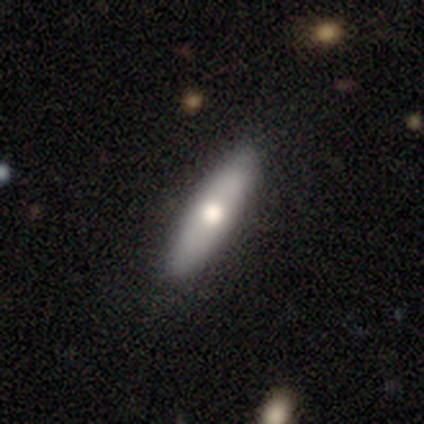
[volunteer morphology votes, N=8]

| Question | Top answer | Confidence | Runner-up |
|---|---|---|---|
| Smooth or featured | smooth | 100% | — |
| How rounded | cigar-shaped | 88% | in between (12%) |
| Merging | none | 88% | minor disturbance (12%) |